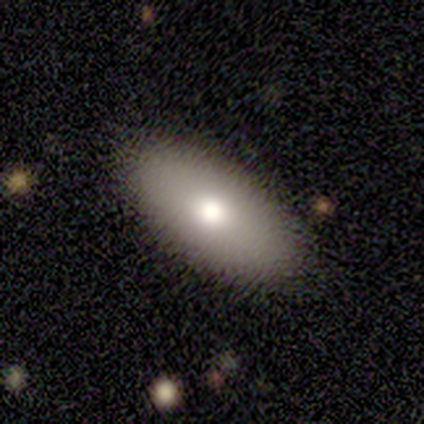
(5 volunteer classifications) Smooth or featured: smooth — 100%
How rounded: in between — 80% (cigar-shaped — 20%)
Merging: none — 80% (major disturbance — 20%)